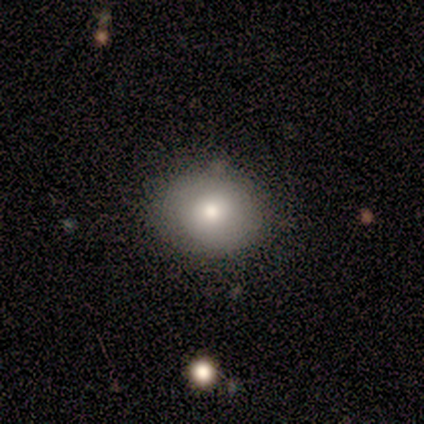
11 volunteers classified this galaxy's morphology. smooth 73%, featured or disk 27%, star or artifact 0%. Down the decision tree: how rounded — round (75%); merging — none (100%).